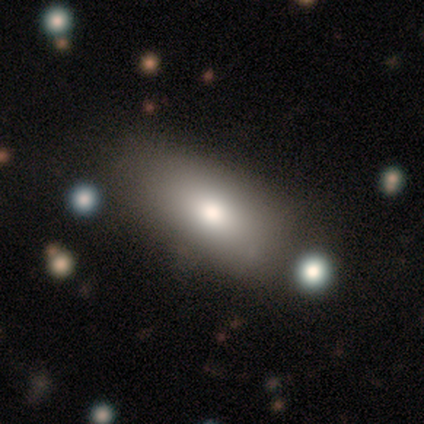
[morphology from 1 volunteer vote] This is clearly a smooth galaxy (100%). How rounded: clearly in between (100%). Merging: clearly none (100%).